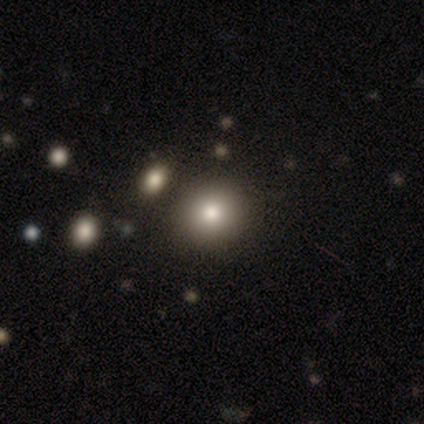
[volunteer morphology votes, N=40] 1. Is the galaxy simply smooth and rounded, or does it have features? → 88% smooth, 10% star or artifact, 2% featured or disk.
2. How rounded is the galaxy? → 83% round, 17% in between, 0% cigar-shaped.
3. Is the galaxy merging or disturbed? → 67% none, 11% merger, 6% minor disturbance, 0% major disturbance.